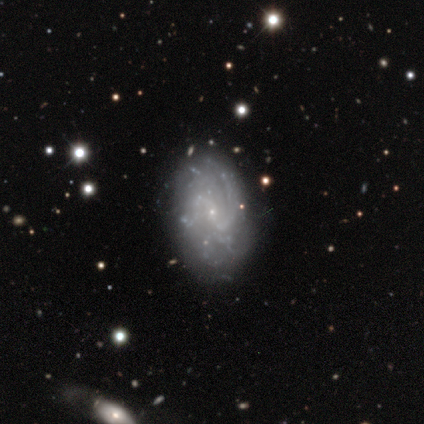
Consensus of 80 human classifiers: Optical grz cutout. It shows a featured or disk galaxy (88%) with no bar (51%), tight (39%, tied with medium) spiral arms (93%) and a small central bulge (75%). Merging: none (47%).